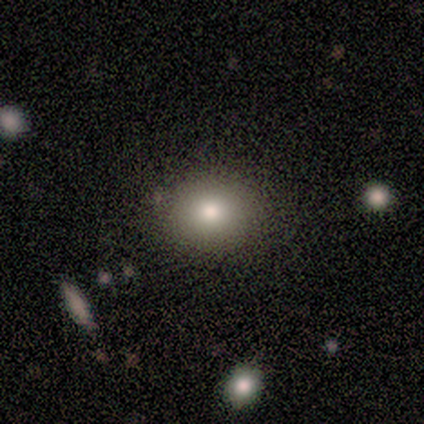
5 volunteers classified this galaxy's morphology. smooth-or-featured: smooth: 80% | star or artifact: 20% | featured or disk: 0%
  how-rounded: round: 50% (tied) | in between: 50% (tied) | cigar-shaped: 0%
  merging: none: 100% | minor disturbance: 0% | major disturbance: 0% | merger: 0%